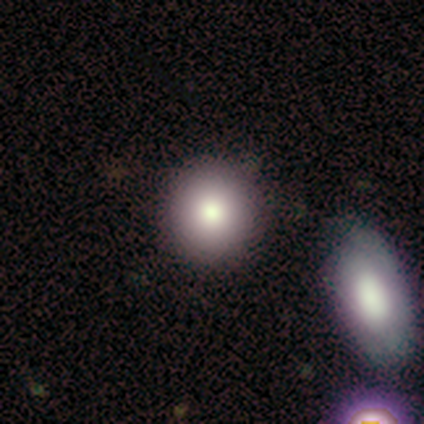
Q: Smooth or featured?
A: smooth (85%); runner-up: featured or disk (15%)
Q: How rounded?
A: round (91%); runner-up: in between (9%)
Q: Merging?
A: none (85%); runner-up: minor disturbance (8%)